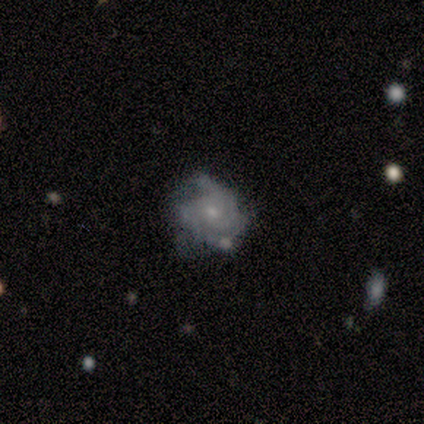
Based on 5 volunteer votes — Smooth or featured?
  - featured or disk: 60% *
  - smooth: 20%
  - star or artifact: 20%
Edge-on disk?
  - no: 100% *
  - yes: 0%
Bar?
  - no: 100% *
  - strong: 0%
  - weak: 0%
Spiral arms?
  - yes: 67% *
  - no: 33%
Spiral winding?
  - tight: 100% *
  - medium: 0%
  - loose: 0%
Spiral arm count?
  - can't tell: 100% *
  - 1: 0%
  - 2: 0%
  - 3: 0%
  - 4: 0%
  - more than 4: 0%
Bulge size?
  - small: 100% *
  - dominant: 0%
  - large: 0%
  - moderate: 0%
  - none: 0%
Merging?
  - none: 75% *
  - major disturbance: 25%
  - minor disturbance: 0%
  - merger: 0%